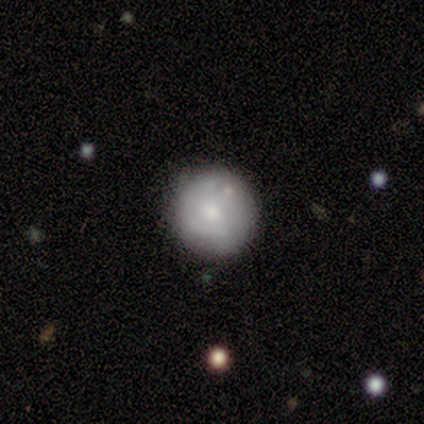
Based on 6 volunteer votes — Smooth or featured?
  - smooth: 83% *
  - featured or disk: 17%
  - star or artifact: 0%
How rounded?
  - round: 100% *
  - in between: 0%
  - cigar-shaped: 0%
Merging?
  - none: 67% *
  - minor disturbance: 33%
  - major disturbance: 0%
  - merger: 0%